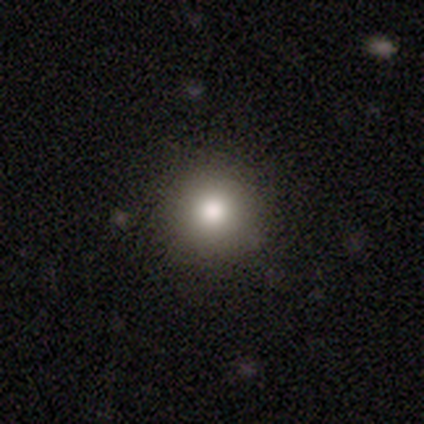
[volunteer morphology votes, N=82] This is clearly a smooth galaxy (80%). How rounded: clearly round (97%). Merging: clearly none (99%).